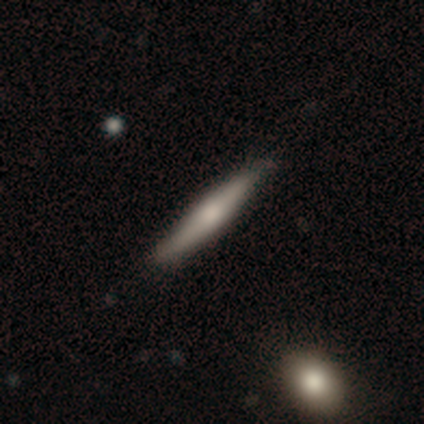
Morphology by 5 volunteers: A featured or disk galaxy (60%) viewed edge-on (100%) with a rounded central bulge (67%). Merging: none (80%).